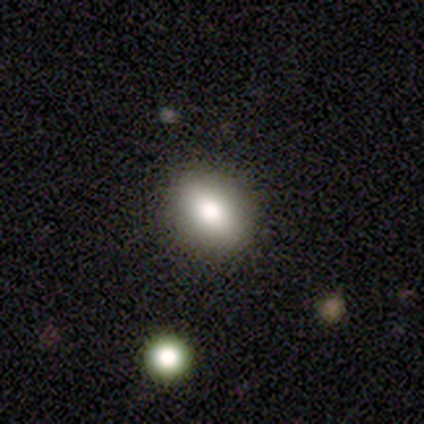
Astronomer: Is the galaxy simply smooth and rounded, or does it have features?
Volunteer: smooth — 80%.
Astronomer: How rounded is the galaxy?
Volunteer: in between — 72%.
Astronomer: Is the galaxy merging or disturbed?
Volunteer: none — 89%.